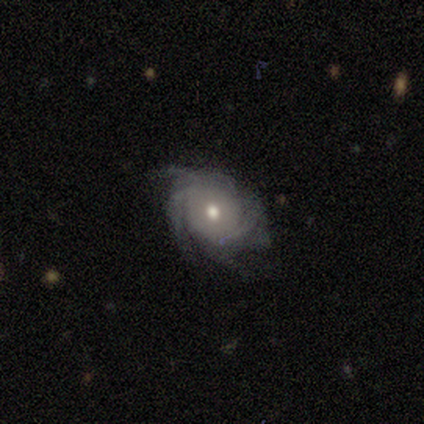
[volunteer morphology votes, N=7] smooth_or_featured: featured or disk (p=1.00)
disk_edge_on: no (p=1.00)
bar: no (p=0.71) [alt: weak p=0.29]
has_spiral_arms: yes (p=1.00)
spiral_winding: tight (p=0.71) [alt: medium p=0.29]
spiral_arm_count: 4 (p=0.57) [alt: more than 4 p=0.29]
bulge_size: moderate (p=0.71) [alt: small p=0.29]
merging: none (p=0.57) [alt: minor disturbance p=0.29]